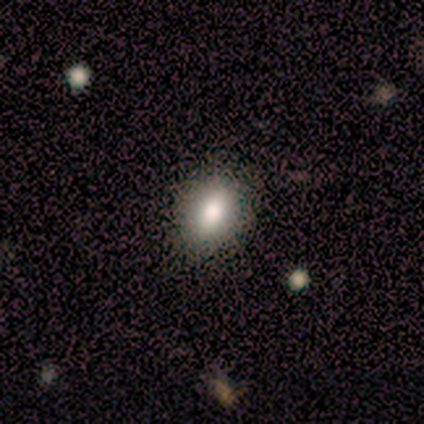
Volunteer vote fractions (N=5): Overall: smooth (80%). How rounded: in between (75%). Merging: none (100%).